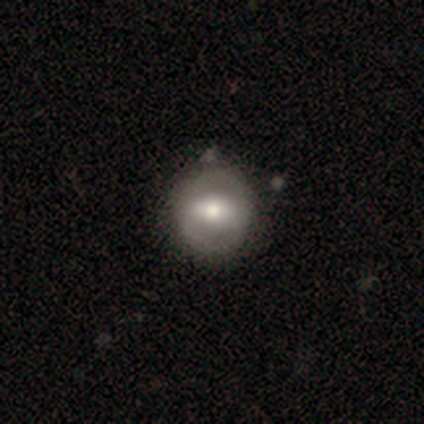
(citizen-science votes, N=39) Smooth or featured: featured or disk — 74% (smooth — 23%)
Edge-on disk: no — 100%
Bar: strong — 52% (weak — 34%)
Spiral arms: no — 69% (yes — 31%)
Bulge size: moderate — 66% (large — 14%)
Merging: none — 53% (minor disturbance — 8%)